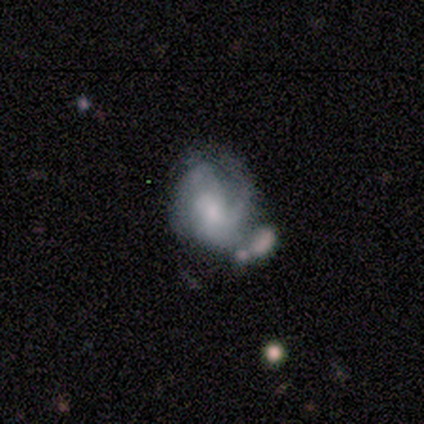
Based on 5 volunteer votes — smooth-or-featured: featured or disk: 60% | smooth: 40% | star or artifact: 0%
  disk-edge-on: no: 100% | yes: 0%
    bar: no: 67% | weak: 33% | strong: 0%
    has-spiral-arms: yes: 100% | no: 0%
      spiral-winding: medium: 67% | tight: 33% | loose: 0%
      spiral-arm-count: can't tell: 67% | 2: 33% | 1: 0% | 3: 0% | 4: 0% | more than 4: 0%
    bulge-size: small: 67% | moderate: 33% | dominant: 0% | large: 0% | none: 0%
  merging: none: 40% (tied) | minor disturbance: 40% (tied) | merger: 20% | major disturbance: 0%